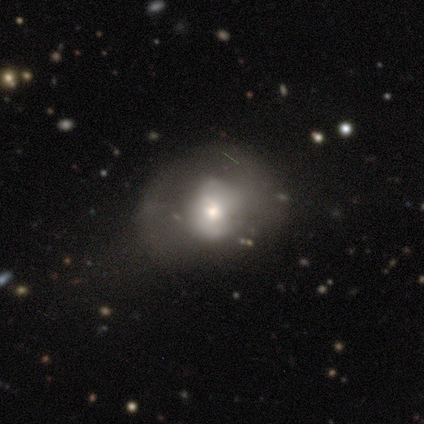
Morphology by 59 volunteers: Smooth or featured: smooth — 54% (featured or disk — 36%)
How rounded: round — 62% (in between — 38%)
Merging: none — 40% (major disturbance — 15%)